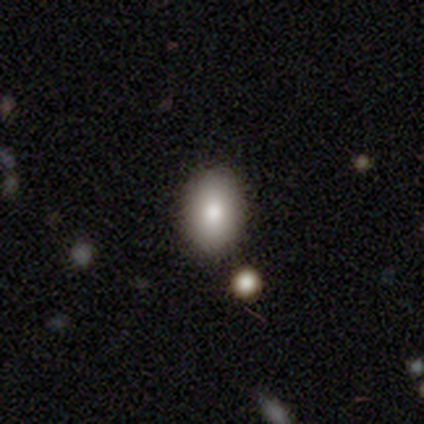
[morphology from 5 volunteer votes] A smooth galaxy with no disk features (80%) that is in between round and cigar-shaped (100%).

Vote fractions:
- Smooth or featured? smooth: 80% / featured or disk: 20% / star or artifact: 0%
- How rounded? in between: 100% / round: 0% / cigar-shaped: 0%
- Merging? none: 80% / minor disturbance: 20% / major disturbance: 0% / merger: 0%